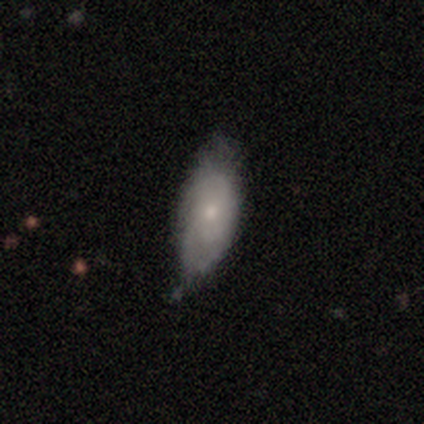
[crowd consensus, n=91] Overall: smooth (49%; featured or disk 43%). How rounded: in between (82%). Merging: minor disturbance (51%; none 44%).